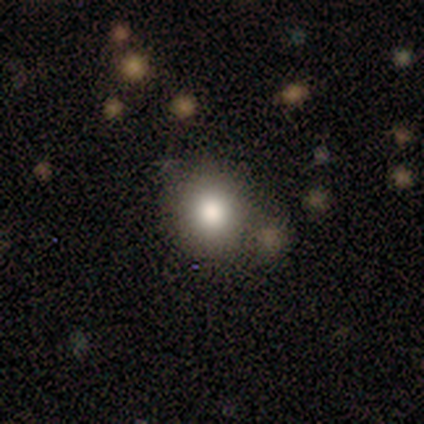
This is clearly a smooth galaxy (100%). How rounded: clearly round (100%). Merging: possibly none (50%, tied with minor disturbance).